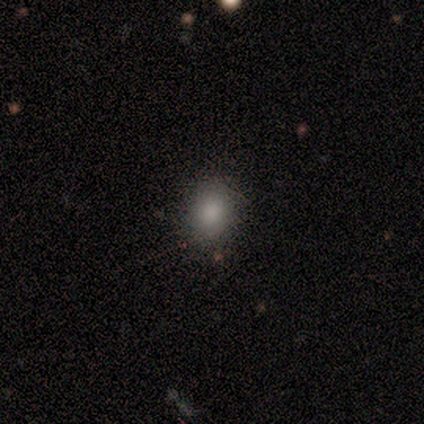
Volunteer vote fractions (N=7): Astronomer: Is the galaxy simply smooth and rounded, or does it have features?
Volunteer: smooth — 86%.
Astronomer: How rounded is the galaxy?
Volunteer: round — 67%.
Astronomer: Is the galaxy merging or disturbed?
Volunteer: none — 83%.